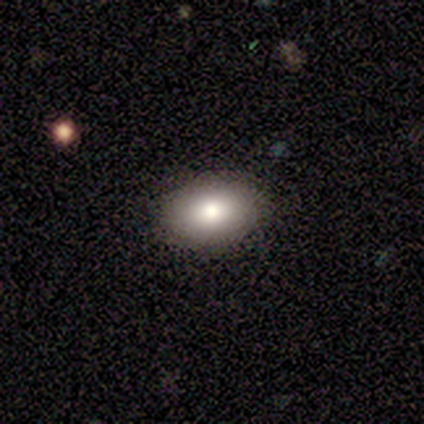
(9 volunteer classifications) A smooth galaxy with no disk features (67%) that is in between round and cigar-shaped (83%). Merging: none (100%).